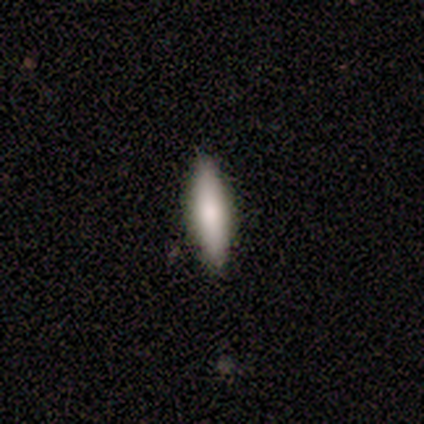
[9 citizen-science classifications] smooth 78%, featured or disk 22%, star or artifact 0%. Down the decision tree: how rounded — cigar-shaped (57%); merging — none (89%).